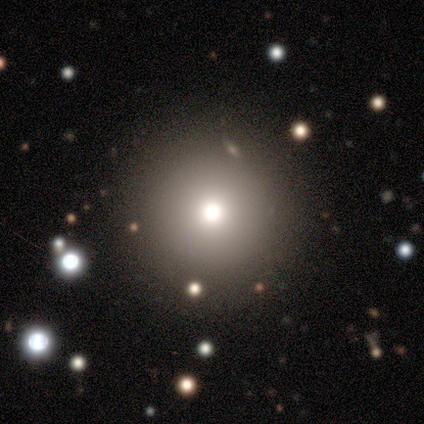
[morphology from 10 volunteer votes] smooth-or-featured: smooth: 60% | featured or disk: 20% | star or artifact: 20%
  how-rounded: round: 83% | in between: 17% | cigar-shaped: 0%
  merging: none: 88% | minor disturbance: 12% | major disturbance: 0% | merger: 0%